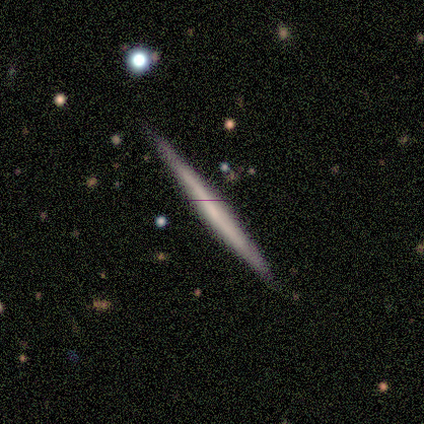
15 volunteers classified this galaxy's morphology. featured or disk 73%, smooth 27%, star or artifact 0%. Down the decision tree: edge-on disk — yes (100%); edge-on bulge — none (91%); merging — none (87%).